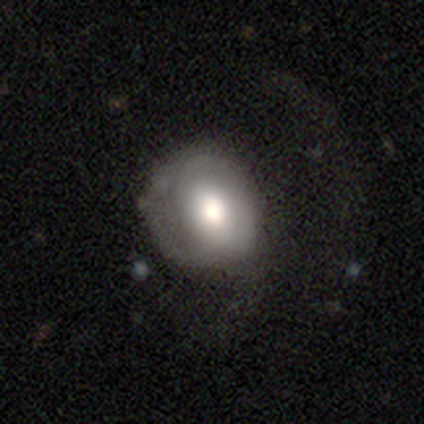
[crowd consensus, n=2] This is clearly a smooth galaxy (100%). How rounded: clearly in between (100%). Merging: possibly none (50%, tied with minor disturbance).